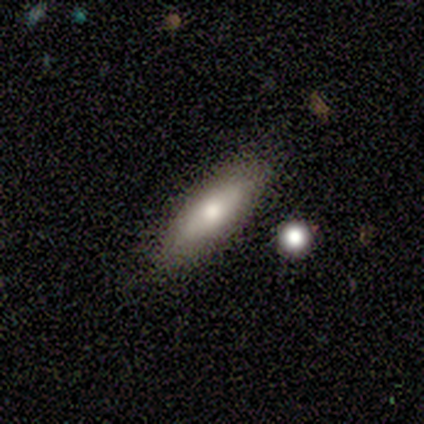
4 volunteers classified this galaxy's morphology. smooth_or_featured: smooth (p=1.00)
how_rounded: in between (p=0.75) [alt: cigar-shaped p=0.25]
merging: none (p=1.00)